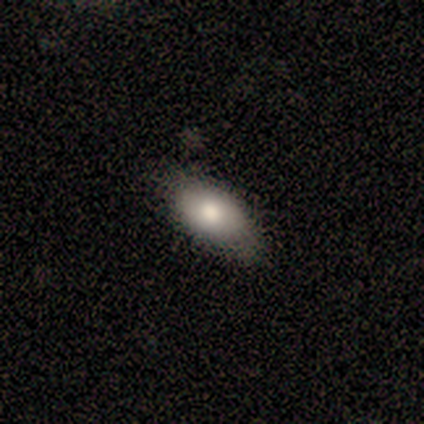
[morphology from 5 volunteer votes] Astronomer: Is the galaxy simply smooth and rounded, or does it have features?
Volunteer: smooth — 80%.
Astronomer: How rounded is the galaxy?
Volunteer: in between — 100%.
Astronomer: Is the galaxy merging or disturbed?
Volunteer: none — 50%, tied with minor disturbance at 50%.